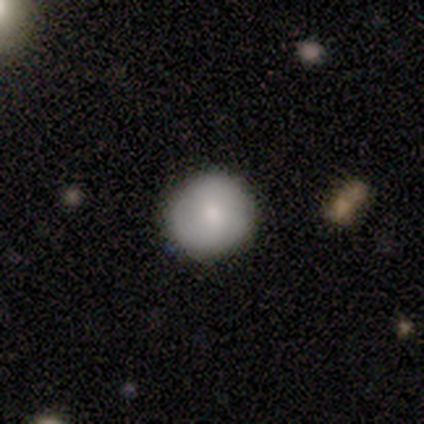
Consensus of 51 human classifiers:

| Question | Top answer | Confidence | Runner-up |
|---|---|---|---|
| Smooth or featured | smooth | 73% | featured or disk (22%) |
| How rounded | round | 92% | in between (8%) |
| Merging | none | 90% | minor disturbance (8%) |